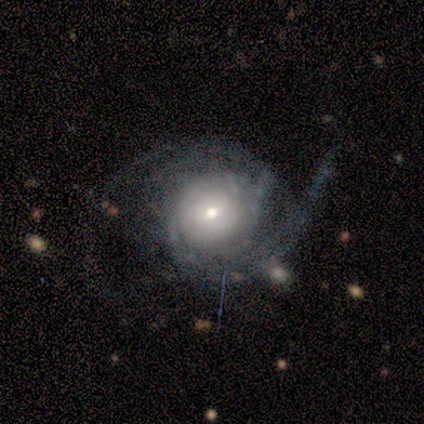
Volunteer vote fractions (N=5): Smooth or featured: featured or disk — 100%
Edge-on disk: no — 100%
Bar: weak — 80% (no — 20%)
Spiral arms: yes — 100%
Spiral winding: tight — 40% (tied with medium — 40%)
Spiral arm count: 2 — 80% (can't tell — 20%)
Bulge size: moderate — 80% (small — 20%)
Merging: none — 60% (minor disturbance — 40%)